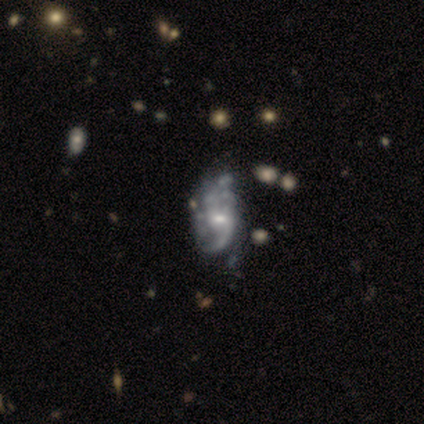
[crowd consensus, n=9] Overall: featured or disk (89%). Edge-on disk: no (100%). Bar: no (62%; weak 38%). Spiral arms: yes (75%). Spiral arm count: 2 (50%; can't tell 33%). Spiral winding: loose (100%). Bulge size: moderate (62%; small 38%). Merging: minor disturbance (44%; major disturbance 33%).